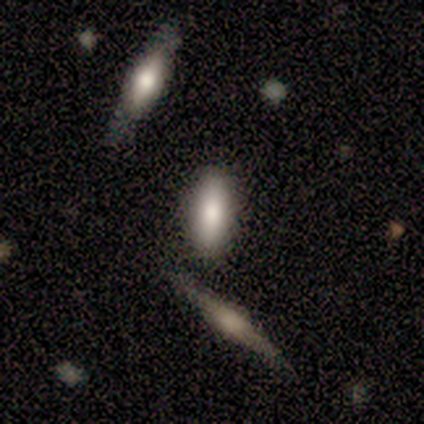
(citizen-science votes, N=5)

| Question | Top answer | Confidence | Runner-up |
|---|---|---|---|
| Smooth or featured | smooth | 60% | featured or disk (40%) |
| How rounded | in between | 67% | cigar-shaped (33%) |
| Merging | none | 100% | — |